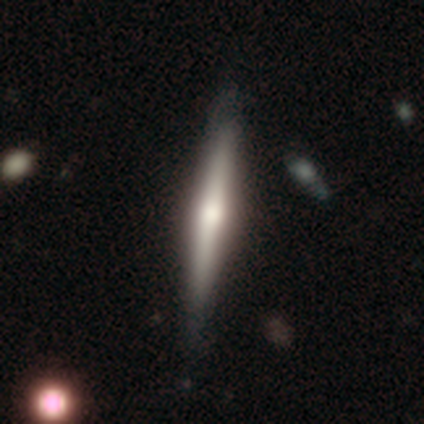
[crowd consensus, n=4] This is possibly a smooth galaxy (50%, tied with featured or disk). How rounded: clearly cigar-shaped (100%). Merging: clearly none (100%).